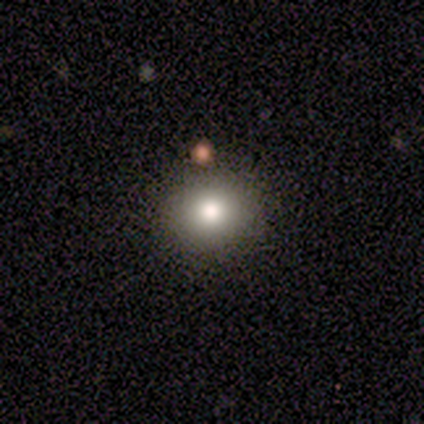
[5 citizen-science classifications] Smooth or featured?
  - smooth: 80% *
  - star or artifact: 20%
  - featured or disk: 0%
How rounded?
  - round: 75% *
  - in between: 25%
  - cigar-shaped: 0%
Merging?
  - none: 100% *
  - minor disturbance: 0%
  - major disturbance: 0%
  - merger: 0%